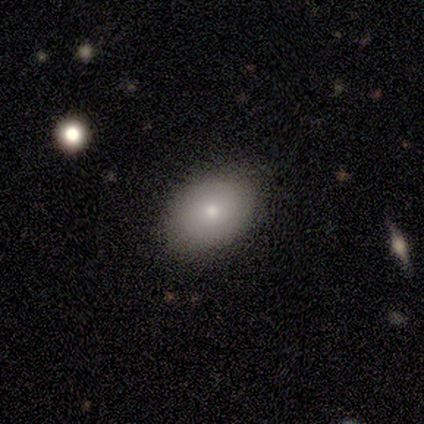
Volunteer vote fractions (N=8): Smooth or featured?
  - smooth: 88% *
  - featured or disk: 12%
  - star or artifact: 0%
How rounded?
  - in between: 100% *
  - round: 0%
  - cigar-shaped: 0%
Merging?
  - none: 88% *
  - minor disturbance: 12%
  - major disturbance: 0%
  - merger: 0%